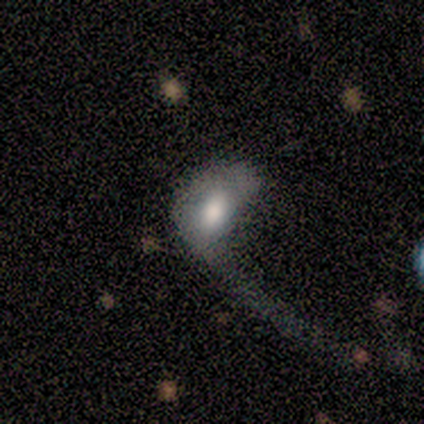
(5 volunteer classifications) smooth-or-featured: smooth: 60% | featured or disk: 40% | star or artifact: 0%
  how-rounded: in between: 100% | round: 0% | cigar-shaped: 0%
  merging: major disturbance: 80% | minor disturbance: 20% | none: 0% | merger: 0%